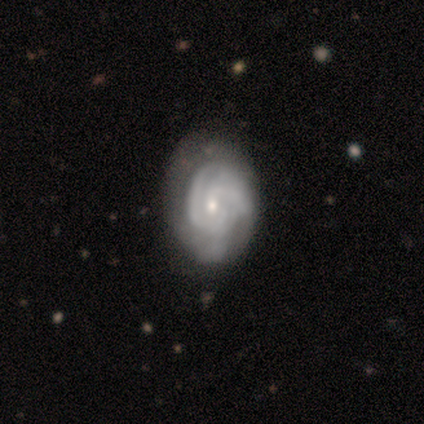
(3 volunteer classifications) Q: Smooth or featured?
A: featured or disk (67%); runner-up: smooth (33%)
Q: Edge-on disk?
A: no (100%)
Q: Bar?
A: no (100%)
Q: Spiral arms?
A: yes (100%)
Q: Spiral winding?
A: tight (50%); tied with: medium (50%)
Q: Spiral arm count?
A: 2 (50%); tied with: 3 (50%)
Q: Bulge size?
A: small (100%)
Q: Merging?
A: none (67%); runner-up: minor disturbance (33%)